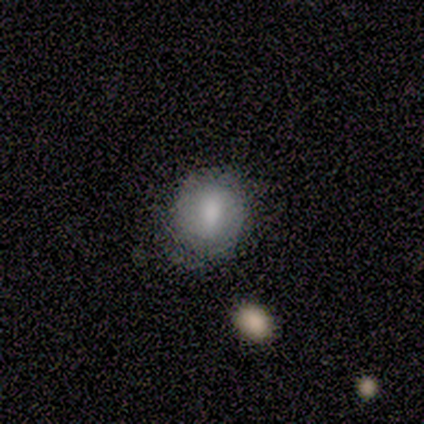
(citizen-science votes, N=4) Smooth or featured: star or artifact — 75% (smooth — 25%)